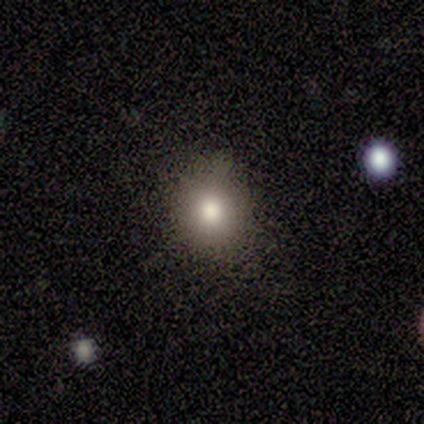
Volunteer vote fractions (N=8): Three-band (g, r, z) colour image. It shows a smooth galaxy with no disk features (88%) that is round (86%). Merging: none (86%).